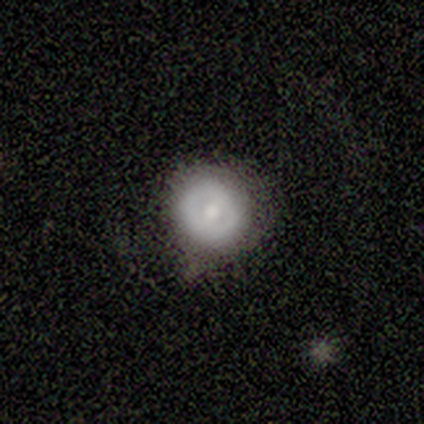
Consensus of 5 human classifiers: Smooth or featured? featured or disk (60%)
Edge-on disk? no (100%)
Bar? weak (100%)
Spiral arms? no (100%)
Bulge size? moderate (100%)
Merging? minor disturbance (80%)